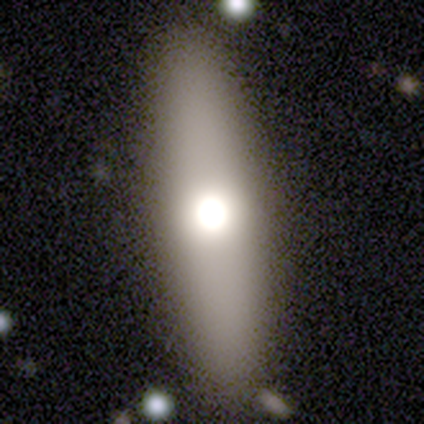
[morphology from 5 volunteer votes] Smooth or featured? smooth (80%)
How rounded? in between (50%, tied with cigar-shaped)
Merging? none (80%)